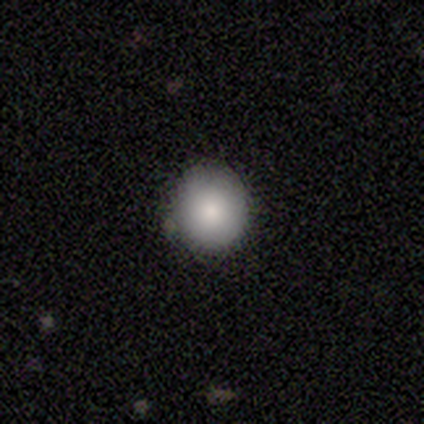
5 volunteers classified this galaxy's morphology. smooth-or-featured: smooth: 100% | featured or disk: 0% | star or artifact: 0%
  how-rounded: round: 100% | in between: 0% | cigar-shaped: 0%
  merging: none: 100% | minor disturbance: 0% | major disturbance: 0% | merger: 0%